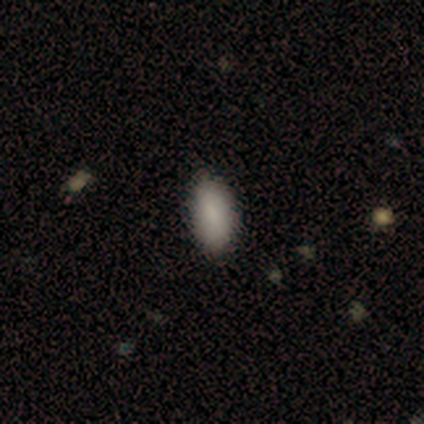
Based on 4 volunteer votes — Morphology: type=smooth (75%); roundness=in between (100%); merging=none (100%).